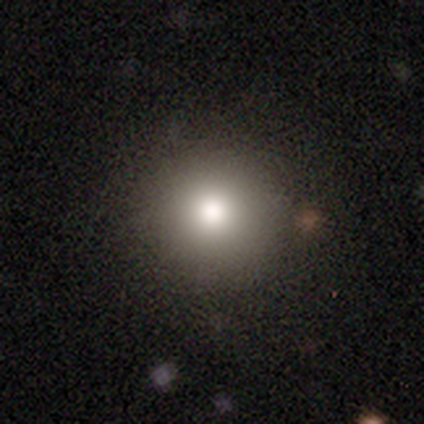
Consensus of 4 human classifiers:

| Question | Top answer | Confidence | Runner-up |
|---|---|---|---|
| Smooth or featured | smooth | 100% | — |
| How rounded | round | 100% | — |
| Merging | none | 100% | — |